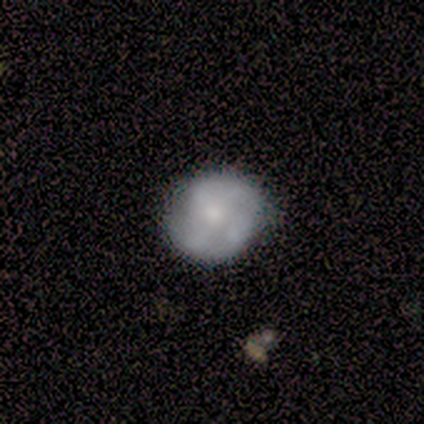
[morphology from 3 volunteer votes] smooth_or_featured: featured or disk (p=0.67) [alt: smooth p=0.33]
disk_edge_on: no (p=1.00)
bar: strong (p=0.50) [tied with: no p=0.50]
has_spiral_arms: yes (p=0.50) [tied with: no p=0.50]
spiral_winding: medium (p=1.00)
spiral_arm_count: 2 (p=1.00)
bulge_size: moderate (p=1.00)
merging: none (p=1.00)